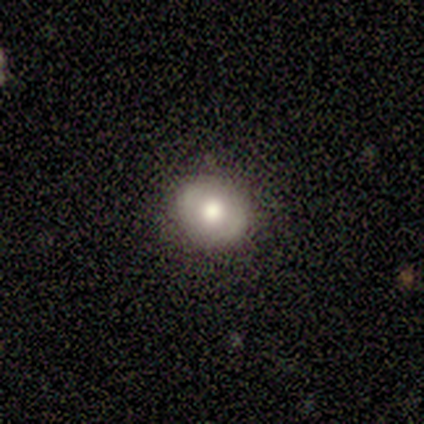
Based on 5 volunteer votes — Morphology: type=smooth (80%); roundness=round (75%); merging=none (80%).